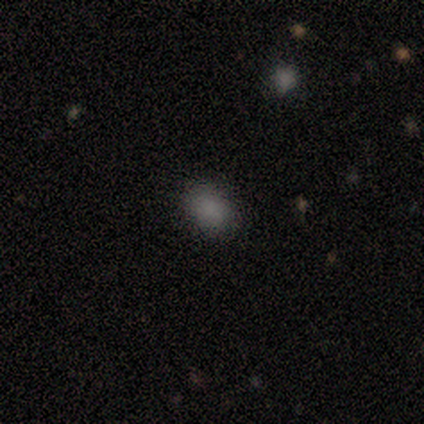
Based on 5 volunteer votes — smooth-or-featured: smooth: 100% | featured or disk: 0% | star or artifact: 0%
  how-rounded: round: 60% | in between: 40% | cigar-shaped: 0%
  merging: none: 100% | minor disturbance: 0% | major disturbance: 0% | merger: 0%